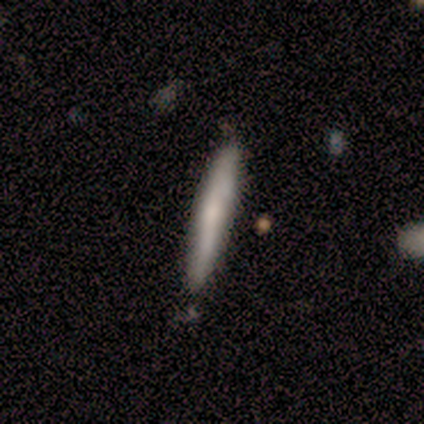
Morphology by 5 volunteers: A smooth galaxy with no disk features (60%) that is cigar-shaped (100%).

Vote fractions:
- Smooth or featured? smooth: 60% / featured or disk: 40% / star or artifact: 0%
- How rounded? cigar-shaped: 100% / round: 0% / in between: 0%
- Merging? none: 80% / minor disturbance: 20% / major disturbance: 0% / merger: 0%